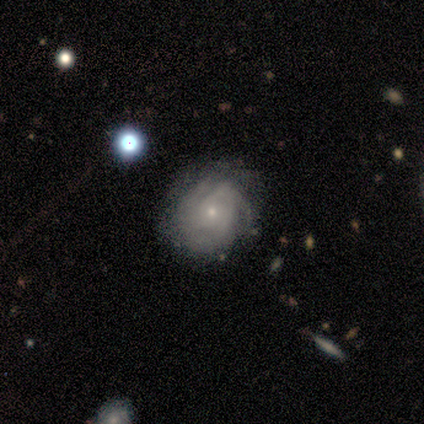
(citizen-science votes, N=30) A featured or disk galaxy (73%) with no bar (73%), 3 (41%) tight (76%) spiral arms (77%) and a small central bulge (77%). Merging: none (86%).